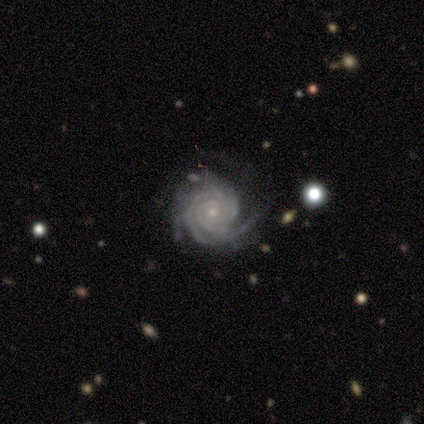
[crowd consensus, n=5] A featured or disk galaxy (100%) with no bar (60%), 3 (60%) tight (100%) spiral arms (100%) and a small central bulge (60%).

Vote fractions:
- Smooth or featured? featured or disk: 100% / smooth: 0% / star or artifact: 0%
- Edge-on disk? no: 100% / yes: 0%
- Bar? no: 60% / strong: 20% / weak: 20%
- Spiral arms? yes: 100% / no: 0%
- Spiral winding? tight: 100% / medium: 0% / loose: 0%
- Spiral arm count? 3: 60% / 4: 40% / 1: 0% / 2: 0% / more than 4: 0% / can't tell: 0%
- Bulge size? small: 60% / moderate: 40% / dominant: 0% / large: 0% / none: 0%
- Merging? none: 80% / minor disturbance: 20% / major disturbance: 0% / merger: 0%